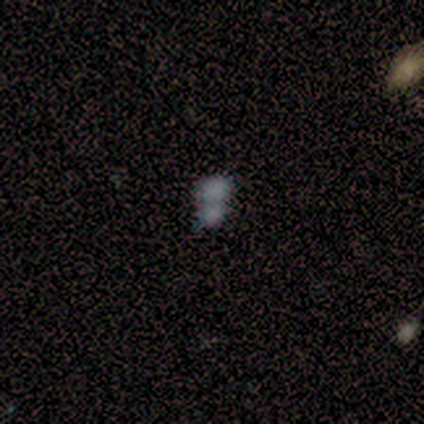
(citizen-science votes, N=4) smooth-or-featured: smooth: 75% | star or artifact: 25% | featured or disk: 0%
  how-rounded: in between: 100% | round: 0% | cigar-shaped: 0%
  merging: merger: 100% | none: 0% | minor disturbance: 0% | major disturbance: 0%